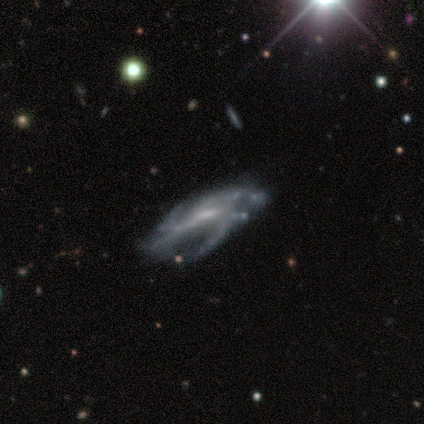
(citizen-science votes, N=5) smooth_or_featured: featured or disk (p=0.80) [alt: star or artifact p=0.20]
disk_edge_on: no (p=1.00)
bar: weak (p=0.75) [alt: strong p=0.25]
has_spiral_arms: yes (p=1.00)
spiral_winding: medium (p=0.75) [alt: tight p=0.25]
spiral_arm_count: 2 (p=0.50) [tied with: 3 p=0.50]
bulge_size: moderate (p=0.75) [alt: small p=0.25]
merging: none (p=0.75) [alt: minor disturbance p=0.25]